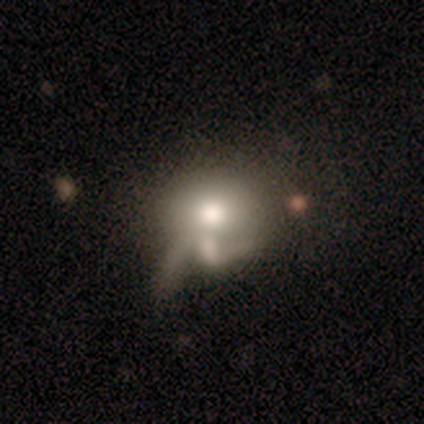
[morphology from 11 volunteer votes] smooth 55%, featured or disk 45%, star or artifact 0%. Down the decision tree: how rounded — round (67%); merging — minor disturbance (36%, tied with major disturbance).